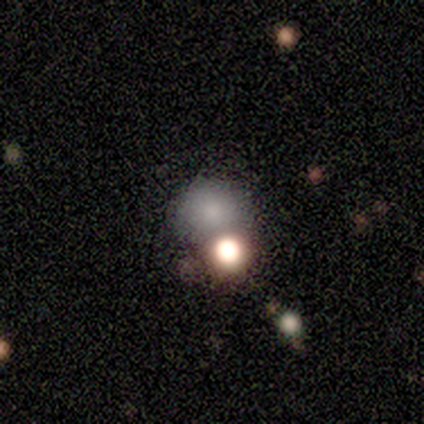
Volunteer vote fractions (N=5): Q: Smooth or featured?
A: smooth (80%); runner-up: star or artifact (20%)
Q: How rounded?
A: round (100%)
Q: Merging?
A: none (75%); runner-up: merger (25%)